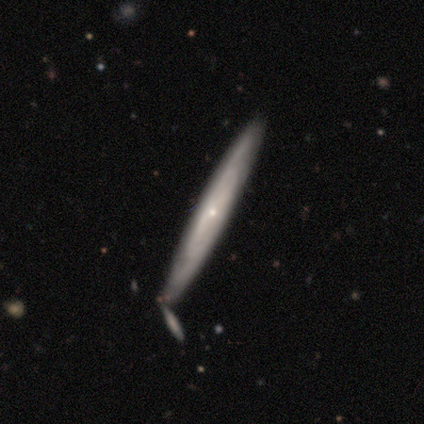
Volunteers were most divided on "edge-on bulge": none: 61%, rounded: 39%, boxy: 0%. More confident: edge-on disk — yes (97%); merging — none (76%); smooth or featured — featured or disk (74%).